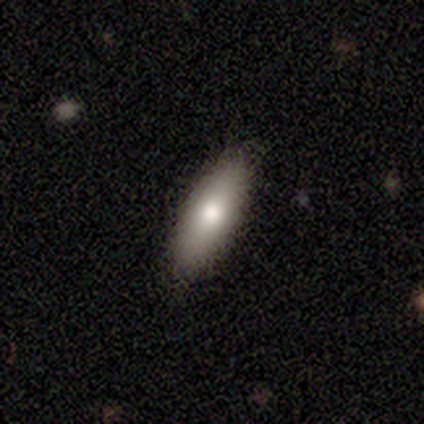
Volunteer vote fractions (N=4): Smooth or featured: smooth — 100%
How rounded: in between — 50% (tied with cigar-shaped — 50%)
Merging: none — 75% (minor disturbance — 25%)